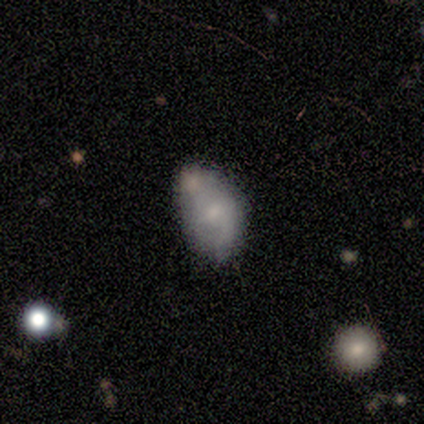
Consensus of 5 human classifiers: This is likely a smooth galaxy (60%). How rounded: clearly in between (100%). Merging: possibly merger (50%).